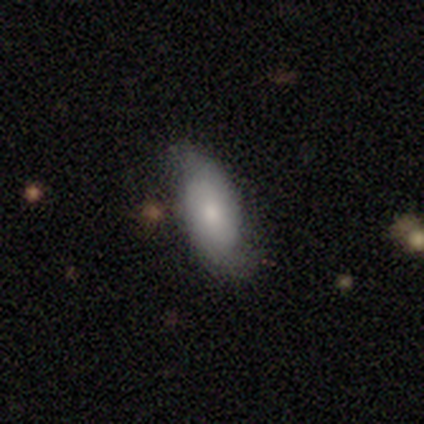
Morphology: type=featured or disk (80%); edge-on=no (75%); bar=no (100%); spiral arms=yes (67%); winding=tight (50%, tied with loose); arm count=2 (100%); bulge=small (67%); merging=none (80%).